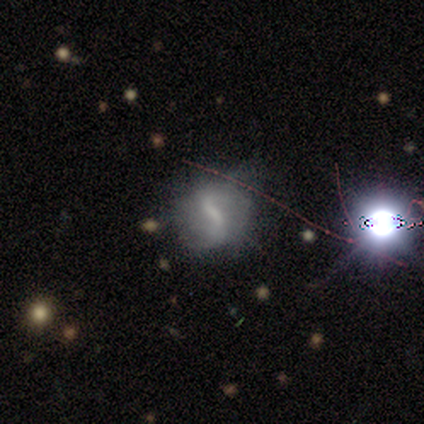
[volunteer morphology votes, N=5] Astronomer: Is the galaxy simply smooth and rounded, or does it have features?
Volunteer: featured or disk — 60% (runner-up: smooth, 40%).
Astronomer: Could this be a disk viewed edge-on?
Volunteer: no — 100%.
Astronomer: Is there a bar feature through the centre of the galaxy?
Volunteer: strong — 67%.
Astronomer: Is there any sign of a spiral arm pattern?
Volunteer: yes — 67%.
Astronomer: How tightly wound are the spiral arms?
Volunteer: medium — 50%, tied with loose at 50%.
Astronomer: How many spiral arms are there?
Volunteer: can't tell — 100%.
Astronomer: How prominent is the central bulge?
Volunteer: moderate — 67%.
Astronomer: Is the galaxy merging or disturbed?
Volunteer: none — 80%.